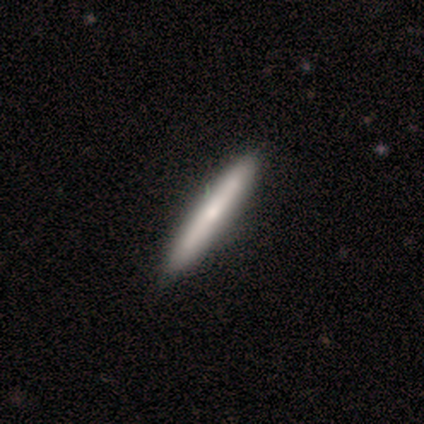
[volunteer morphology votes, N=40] smooth_or_featured: smooth (p=0.57) [alt: featured or disk p=0.35]
how_rounded: cigar-shaped (p=0.96) [alt: in between p=0.04]
merging: none (p=0.68) [alt: minor disturbance p=0.08]